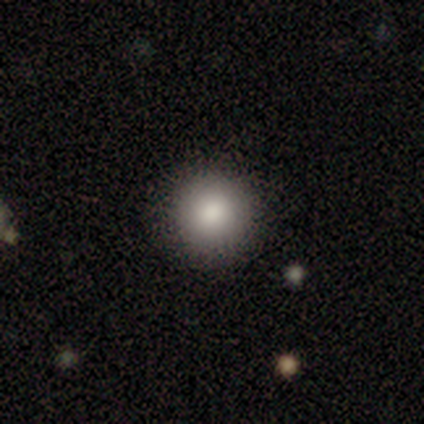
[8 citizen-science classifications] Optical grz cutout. It shows a smooth galaxy with no disk features (75%) that is round (83%). Merging: none (88%).